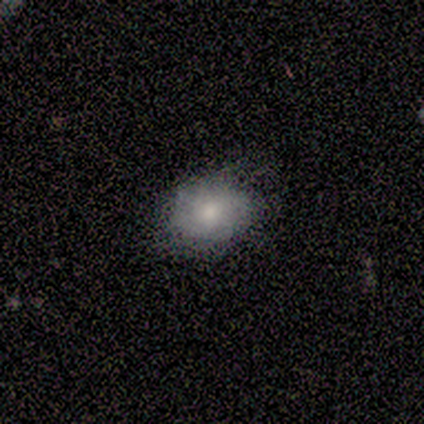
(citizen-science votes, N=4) Overall: smooth (50%, tied with featured or disk). How rounded: round (100%). Merging: none (50%, tied with minor disturbance).